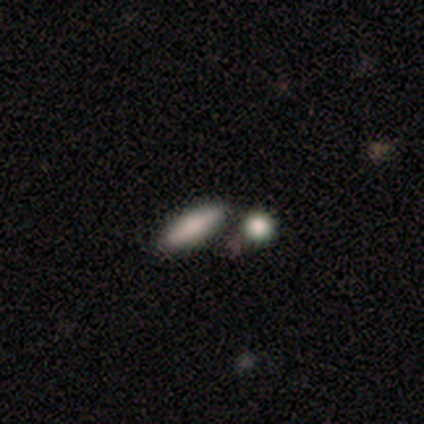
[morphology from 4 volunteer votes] type=smooth (100%); roundness=cigar-shaped (75%); merging=none (100%).